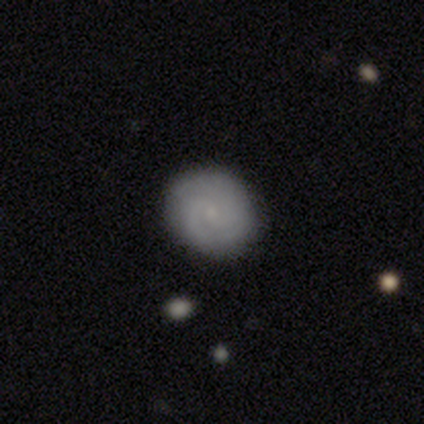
Overall: featured or disk (57%; smooth 32%). Edge-on disk: no (100%). Bar: no (78%). Spiral arms: yes (96%). Spiral arm count: 2 (41%, tied with can't tell). Spiral winding: tight (64%; medium 36%). Bulge size: small (87%). Merging: none (94%).